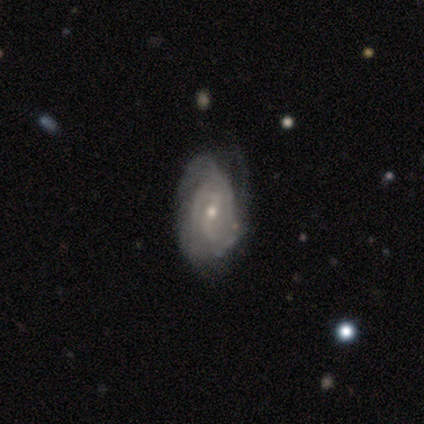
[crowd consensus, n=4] This appears to be a featured or disk galaxy (75%) with no bar (67%), 2 (50%, tied with 4) medium (100%) spiral arms (67%) and a small central bulge (100%). Merging: minor disturbance (67%).